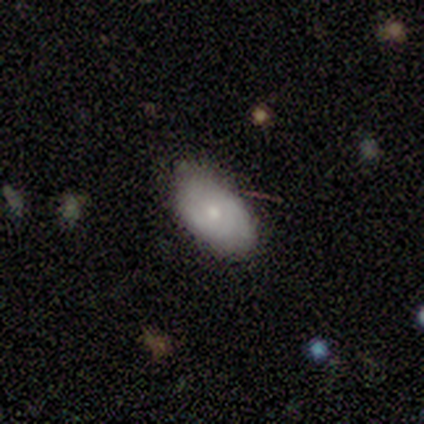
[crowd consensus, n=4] A smooth galaxy with no disk features (50%, tied with featured or disk) that is in between round and cigar-shaped (100%). Merging: none (100%).